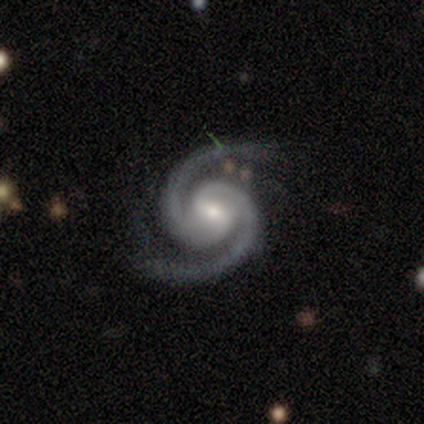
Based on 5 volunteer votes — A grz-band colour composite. It shows a featured or disk galaxy (80%) with a weak bar (100%), 2 (100%) medium (75%) spiral arms (100%) and a moderate central bulge (50%, tied with small). Merging: none (75%).